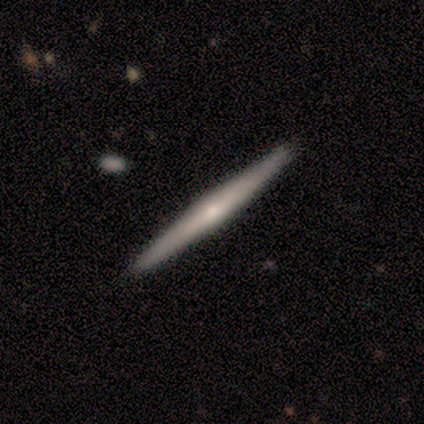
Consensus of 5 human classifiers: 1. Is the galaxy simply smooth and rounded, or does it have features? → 60% featured or disk, 40% smooth, 0% star or artifact.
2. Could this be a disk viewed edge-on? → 100% yes, 0% no.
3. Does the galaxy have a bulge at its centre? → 100% rounded, 0% boxy, 0% none.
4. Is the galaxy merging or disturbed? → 100% none, 0% minor disturbance, 0% major disturbance, 0% merger.